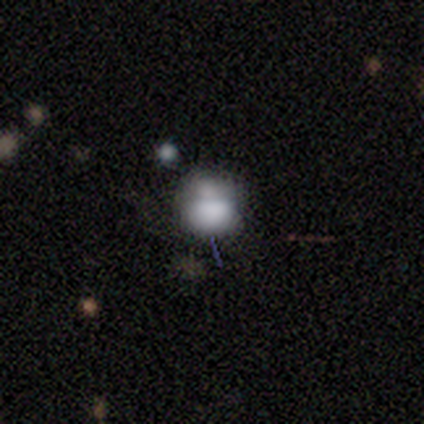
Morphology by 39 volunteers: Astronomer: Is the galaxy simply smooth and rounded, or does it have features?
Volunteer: smooth — 56%.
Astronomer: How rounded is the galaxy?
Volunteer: round — 59% (runner-up: in between, 41%).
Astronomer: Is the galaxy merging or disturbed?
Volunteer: merger — 45% (runner-up: none, 21%).